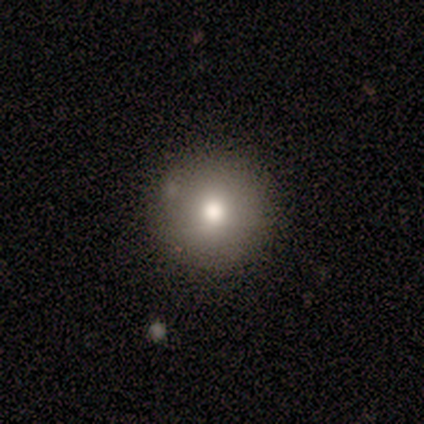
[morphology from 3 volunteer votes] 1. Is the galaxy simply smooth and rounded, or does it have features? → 100% smooth, 0% featured or disk, 0% star or artifact.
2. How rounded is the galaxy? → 100% round, 0% in between, 0% cigar-shaped.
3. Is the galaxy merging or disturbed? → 67% none, 33% minor disturbance, 0% major disturbance, 0% merger.